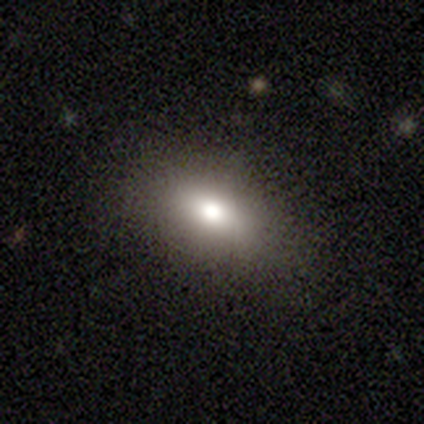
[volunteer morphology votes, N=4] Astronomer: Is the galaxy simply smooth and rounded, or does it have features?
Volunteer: smooth — 75%.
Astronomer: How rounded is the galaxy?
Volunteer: in between — 100%.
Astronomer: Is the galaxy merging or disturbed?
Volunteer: none — 67%.